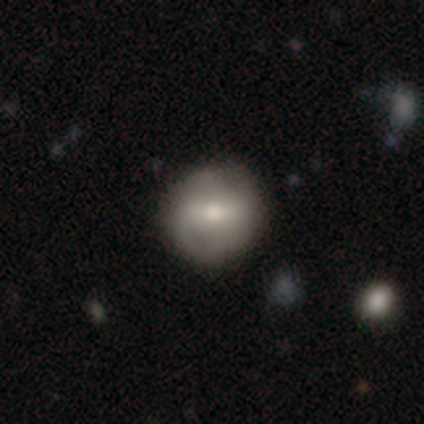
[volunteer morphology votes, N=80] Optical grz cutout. It shows a smooth galaxy with no disk features (56%) that is round (91%). Merging: none (42%).